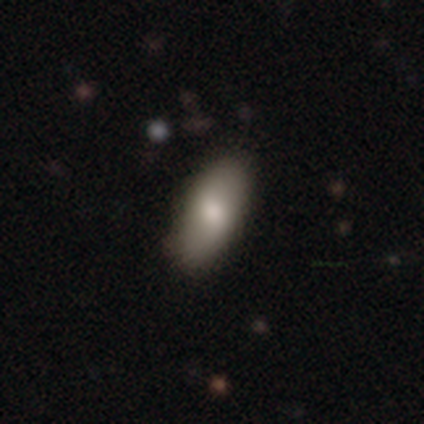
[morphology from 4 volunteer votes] Overall: smooth (100%). How rounded: in between (100%). Merging: none (100%).